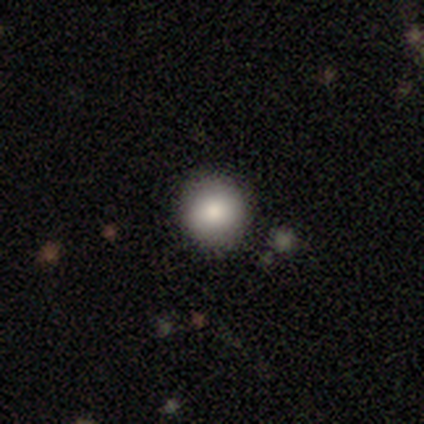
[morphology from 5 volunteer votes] Q: Smooth or featured?
A: smooth (80%); runner-up: star or artifact (20%)
Q: How rounded?
A: round (100%)
Q: Merging?
A: none (100%)